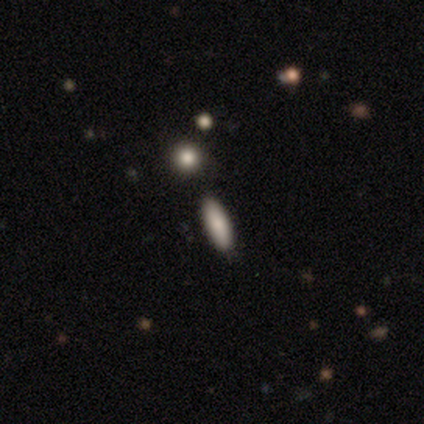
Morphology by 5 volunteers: smooth_or_featured: smooth (p=0.60) [alt: featured or disk p=0.20]
how_rounded: in between (p=0.67) [alt: cigar-shaped p=0.33]
merging: none (p=0.75) [alt: merger p=0.25]